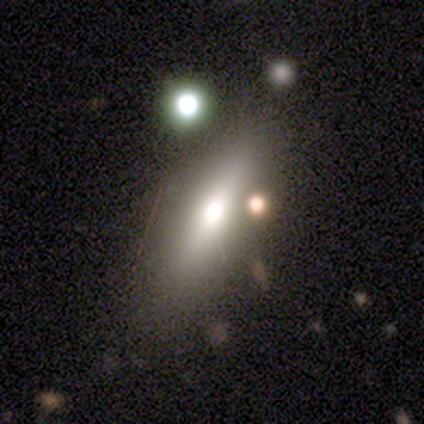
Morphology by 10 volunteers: Smooth or featured? featured or disk (50%)
Edge-on disk? yes (80%)
Edge-on bulge? rounded (100%)
Merging? none (75%)